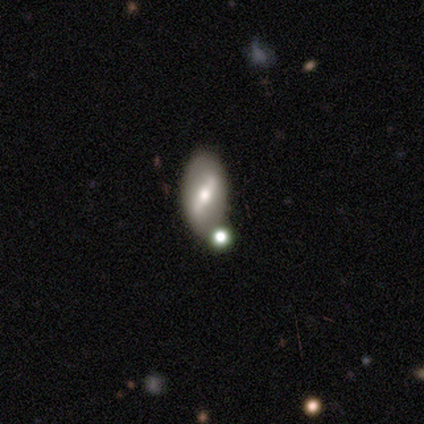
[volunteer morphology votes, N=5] Smooth or featured: smooth — 40% (tied with featured or disk — 40%)
How rounded: in between — 100%
Merging: none — 75% (merger — 25%)